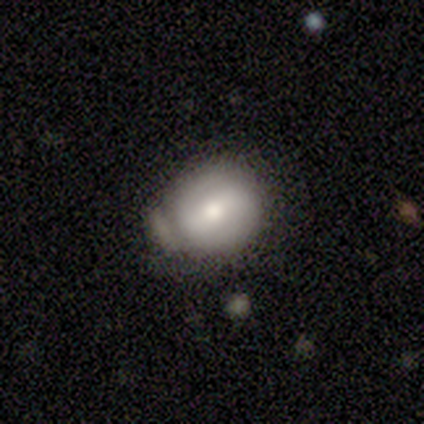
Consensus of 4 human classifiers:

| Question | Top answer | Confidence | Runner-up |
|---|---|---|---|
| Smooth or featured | smooth | 50% | tied: featured or disk (50%) |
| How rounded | round | 50% | tied: in between (50%) |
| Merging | none | 50% | minor disturbance (25%) |